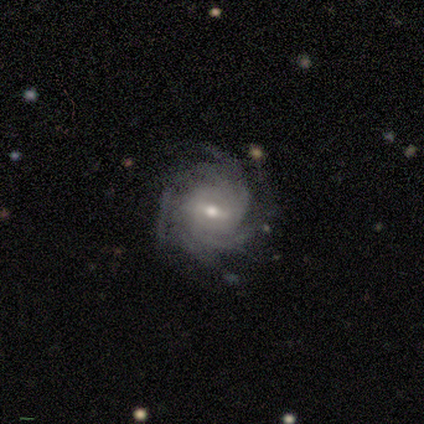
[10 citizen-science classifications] smooth-or-featured: featured or disk: 90% | smooth: 10% | star or artifact: 0%
  disk-edge-on: no: 100% | yes: 0%
    bar: weak: 56% | strong: 33% | no: 11%
    has-spiral-arms: yes: 100% | no: 0%
      spiral-winding: tight: 78% | medium: 22% | loose: 0%
      spiral-arm-count: 4: 44% | more than 4: 33% | can't tell: 22% | 1: 0% | 2: 0% | 3: 0%
    bulge-size: moderate: 78% | small: 22% | dominant: 0% | large: 0% | none: 0%
  merging: none: 60% | minor disturbance: 40% | major disturbance: 0% | merger: 0%